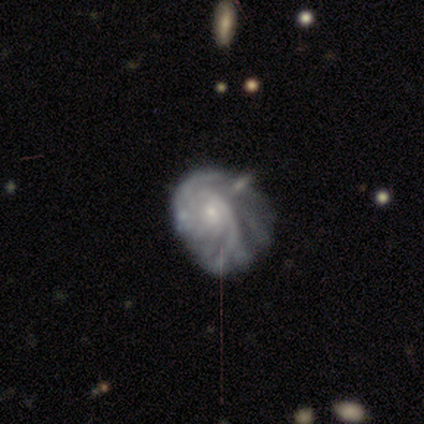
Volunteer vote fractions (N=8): Morphology: type=featured or disk (100%); edge-on=no (100%); bar=no (100%); spiral arms=yes (100%); winding=tight (75%); arm count=can't tell (38%); bulge=small (100%); merging=minor disturbance (50%).